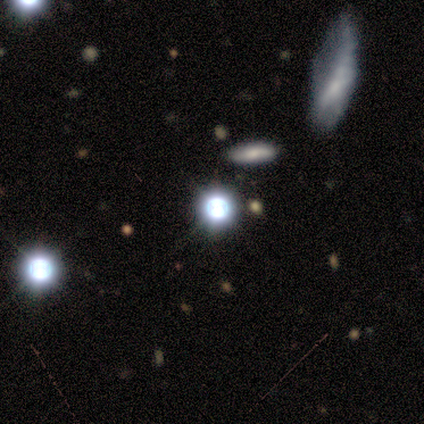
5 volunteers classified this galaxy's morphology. A star or artifact, not a galaxy (60%).

Vote fractions:
- Smooth or featured? star or artifact: 60% / smooth: 20% / featured or disk: 20%